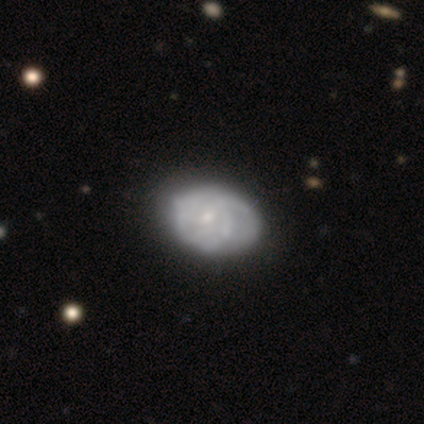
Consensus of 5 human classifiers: smooth-or-featured: featured or disk: 100% | smooth: 0% | star or artifact: 0%
  disk-edge-on: no: 100% | yes: 0%
    bar: no: 80% | weak: 20% | strong: 0%
    has-spiral-arms: yes: 60% | no: 40%
      spiral-winding: tight: 33% (tied) | medium: 33% (tied) | loose: 33% (tied)
      spiral-arm-count: can't tell: 67% | 4: 33% | 1: 0% | 2: 0% | 3: 0% | more than 4: 0%
    bulge-size: small: 80% | moderate: 20% | dominant: 0% | large: 0% | none: 0%
  merging: none: 40% (tied) | merger: 40% (tied) | minor disturbance: 20% | major disturbance: 0%